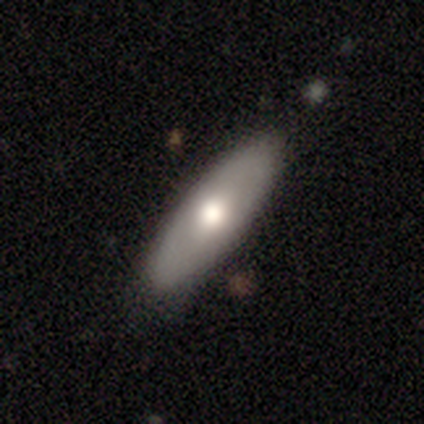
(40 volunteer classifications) Volunteers were most divided on "how rounded": in between: 65%, cigar-shaped: 35%, round: 0%. More confident: merging — none (85%); smooth or featured — smooth (65%).